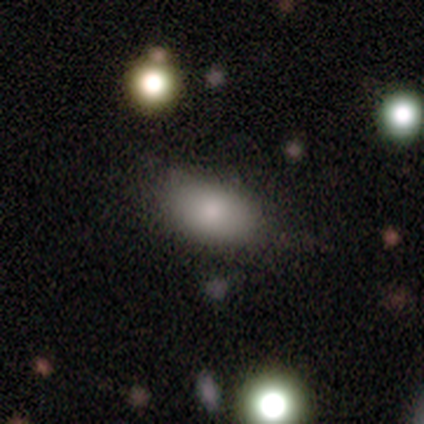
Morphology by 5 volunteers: smooth_or_featured: smooth (p=0.80) [alt: featured or disk p=0.20]
how_rounded: in between (p=1.00)
merging: none (p=1.00)